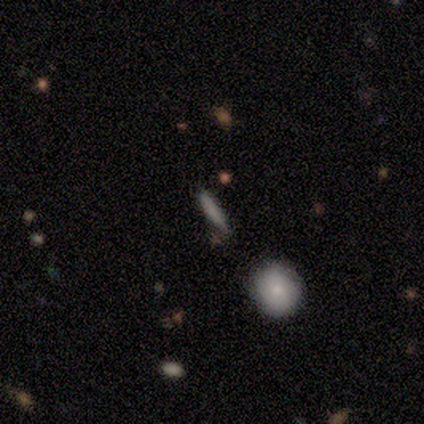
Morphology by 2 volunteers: Q: Smooth or featured?
A: smooth (50%); tied with: star or artifact (50%)
Q: How rounded?
A: cigar-shaped (100%)
Q: Merging?
A: none (100%)